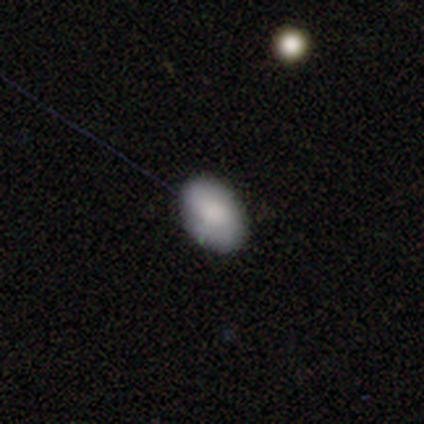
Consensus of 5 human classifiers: This appears to be a smooth galaxy with no disk features (80%) that is in between round and cigar-shaped (75%). Merging: none (100%).